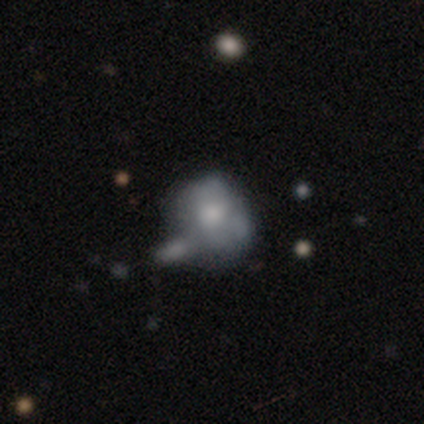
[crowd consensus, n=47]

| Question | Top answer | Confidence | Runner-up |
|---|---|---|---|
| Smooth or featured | smooth | 49% | featured or disk (36%) |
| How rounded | round | 74% | in between (26%) |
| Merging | minor disturbance | 38% | none (35%) |